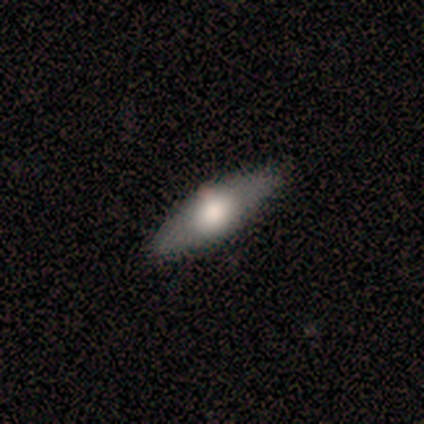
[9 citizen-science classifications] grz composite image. It shows a smooth galaxy with no disk features (89%) that is in between round and cigar-shaped (100%). Merging: none (89%).